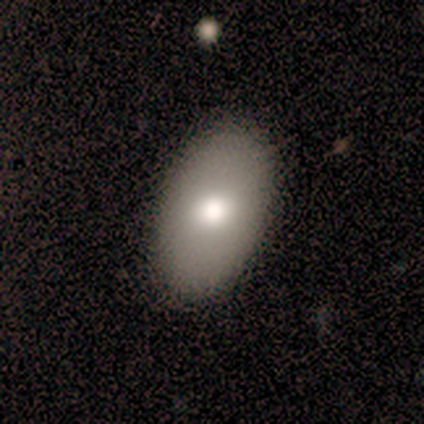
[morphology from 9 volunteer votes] Q: Smooth or featured?
A: smooth (78%); runner-up: featured or disk (22%)
Q: How rounded?
A: in between (86%); runner-up: cigar-shaped (14%)
Q: Merging?
A: none (89%); runner-up: merger (11%)